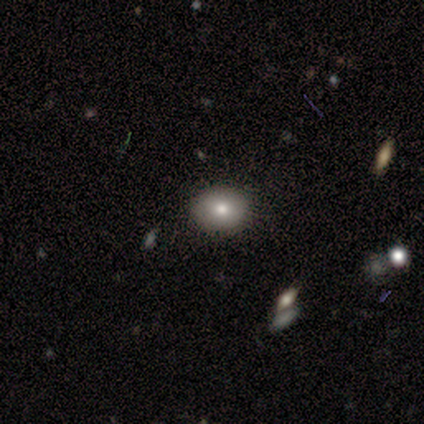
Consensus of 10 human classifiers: A smooth galaxy with no disk features (70%) that is round (71%).

Vote fractions:
- Smooth or featured? smooth: 70% / featured or disk: 20% / star or artifact: 10%
- How rounded? round: 71% / in between: 29% / cigar-shaped: 0%
- Merging? none: 67% / minor disturbance: 33% / major disturbance: 0% / merger: 0%